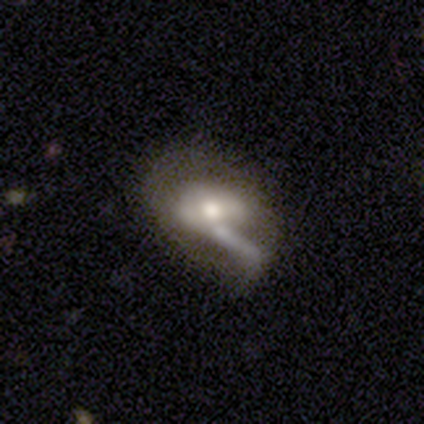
A featured or disk galaxy (62%) with a weak bar (48%), no spiral arms (71%) and a moderate central bulge (62%). Merging: none (29%, tied with merger).